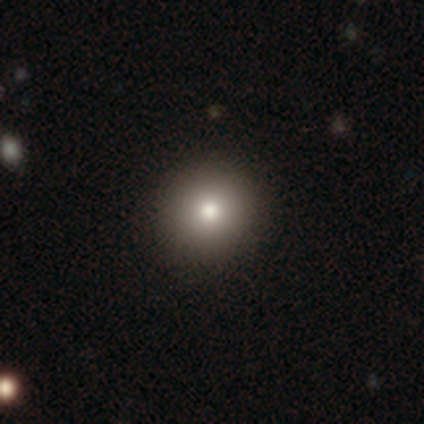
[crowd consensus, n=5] This is likely a smooth galaxy (60%). How rounded: likely round (67%). Merging: likely none (67%).